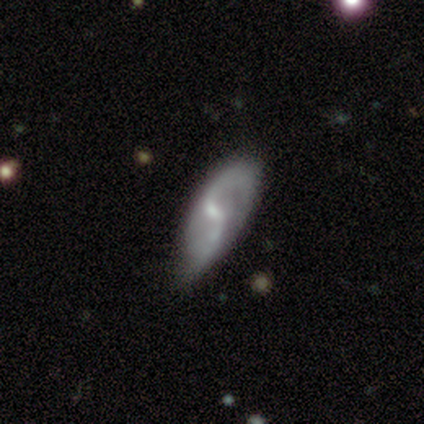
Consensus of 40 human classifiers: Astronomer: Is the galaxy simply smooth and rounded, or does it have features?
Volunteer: featured or disk — 85%.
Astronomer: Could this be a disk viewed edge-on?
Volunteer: no — 94%.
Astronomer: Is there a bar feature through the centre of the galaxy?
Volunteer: weak — 62%.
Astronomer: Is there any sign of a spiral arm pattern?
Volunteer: yes — 88%.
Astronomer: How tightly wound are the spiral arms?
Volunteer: loose — 71%.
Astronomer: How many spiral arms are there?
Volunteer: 2 — 79%.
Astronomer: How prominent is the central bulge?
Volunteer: small — 50%.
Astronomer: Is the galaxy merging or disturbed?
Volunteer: none — 62%.